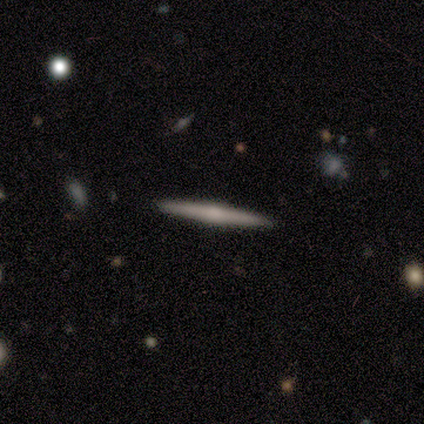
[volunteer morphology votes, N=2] Smooth or featured?
  - smooth: 50% * (tied)
  - featured or disk: 50% * (tied)
  - star or artifact: 0%
How rounded?
  - cigar-shaped: 100% *
  - round: 0%
  - in between: 0%
Merging?
  - none: 100% *
  - minor disturbance: 0%
  - major disturbance: 0%
  - merger: 0%